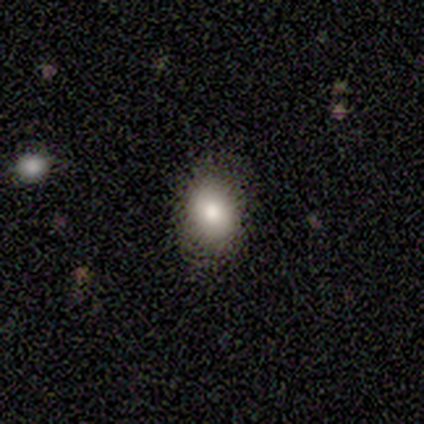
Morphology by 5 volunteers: Smooth or featured? smooth (80%)
How rounded? round (50%, tied with in between)
Merging? none (75%)